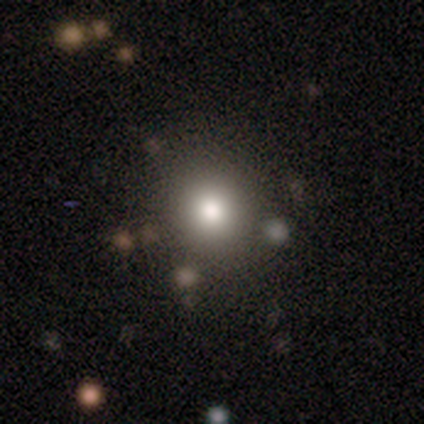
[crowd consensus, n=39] smooth-or-featured: smooth: 77% | star or artifact: 13% | featured or disk: 10%
  how-rounded: round: 97% | in between: 3% | cigar-shaped: 0%
  merging: none: 62% | merger: 6% | minor disturbance: 3% | major disturbance: 0%